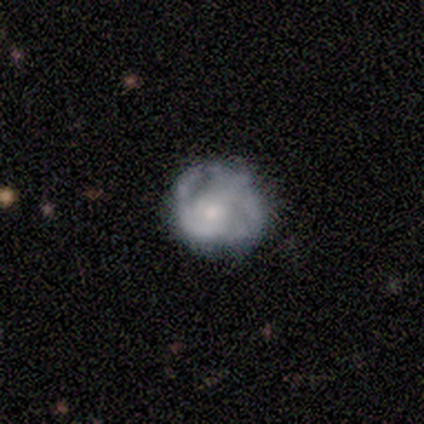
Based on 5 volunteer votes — Q: Smooth or featured?
A: featured or disk (80%); runner-up: smooth (20%)
Q: Edge-on disk?
A: no (100%)
Q: Bar?
A: no (75%); runner-up: weak (25%)
Q: Spiral arms?
A: yes (75%); runner-up: no (25%)
Q: Spiral winding?
A: tight (67%); runner-up: loose (33%)
Q: Spiral arm count?
A: 2 (33%); tied with: 3 (33%); can't tell (33%)
Q: Bulge size?
A: large (50%); runner-up: small (25%)
Q: Merging?
A: none (100%)